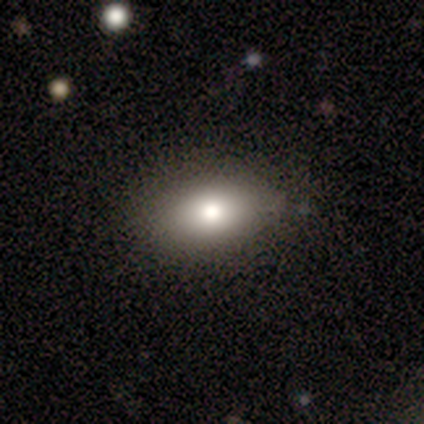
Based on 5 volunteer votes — Overall: smooth (80%). How rounded: in between (100%). Merging: none (50%, tied with minor disturbance).